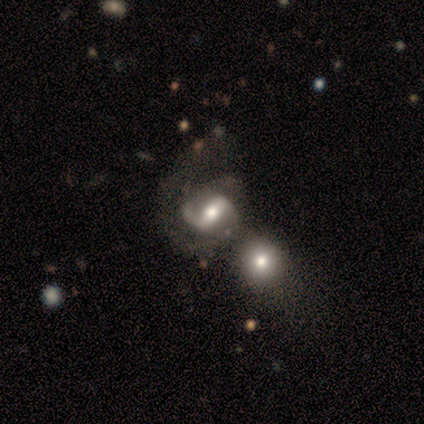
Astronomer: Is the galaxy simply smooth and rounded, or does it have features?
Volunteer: featured or disk — 83%.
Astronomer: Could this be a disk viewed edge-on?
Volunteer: no — 80%.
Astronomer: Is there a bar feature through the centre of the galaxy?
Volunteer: no — 50%.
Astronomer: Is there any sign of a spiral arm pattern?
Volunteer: yes — 100%.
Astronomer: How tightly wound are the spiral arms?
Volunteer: loose — 75%.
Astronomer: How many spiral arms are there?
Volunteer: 2 — 75%.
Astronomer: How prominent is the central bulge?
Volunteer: moderate — 75%.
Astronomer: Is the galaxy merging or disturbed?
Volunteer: none — 60%.